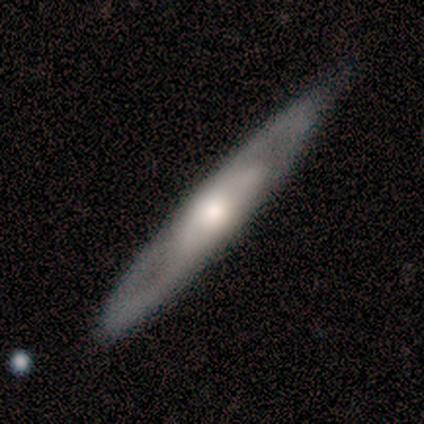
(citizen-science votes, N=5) A featured or disk galaxy (100%) viewed edge-on (100%) with a rounded central bulge (80%). Merging: none (80%).